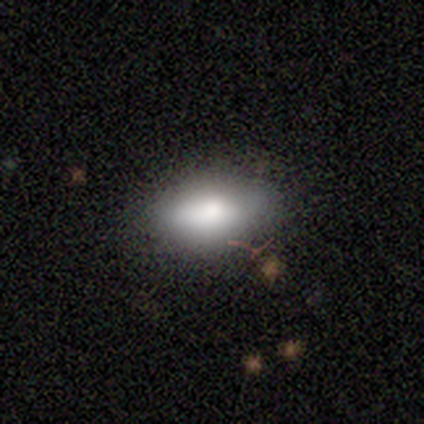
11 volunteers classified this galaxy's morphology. smooth_or_featured: smooth (p=1.00)
how_rounded: in between (p=0.91) [alt: cigar-shaped p=0.09]
merging: none (p=0.82) [alt: minor disturbance p=0.09]